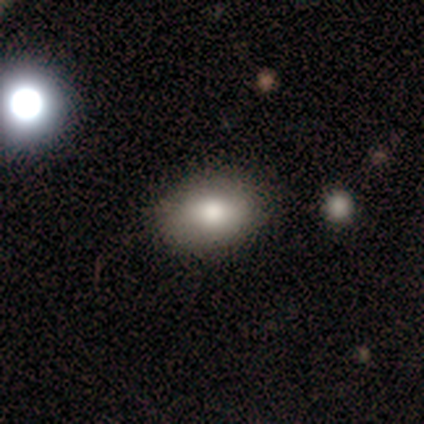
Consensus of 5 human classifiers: Smooth or featured?
  - smooth: 100% *
  - featured or disk: 0%
  - star or artifact: 0%
How rounded?
  - in between: 80% *
  - round: 20%
  - cigar-shaped: 0%
Merging?
  - none: 100% *
  - minor disturbance: 0%
  - major disturbance: 0%
  - merger: 0%